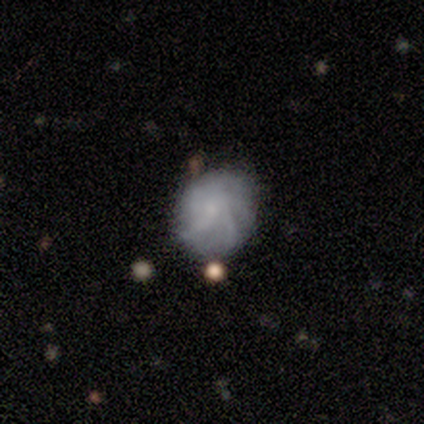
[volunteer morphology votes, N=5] Smooth or featured: featured or disk — 60% (smooth — 40%)
Edge-on disk: no — 100%
Bar: no — 67% (weak — 33%)
Spiral arms: yes — 67% (no — 33%)
Spiral winding: medium — 50% (tied with loose — 50%)
Spiral arm count: more than 4 — 100%
Bulge size: moderate — 33% (tied with small — 33%; none — 33%)
Merging: none — 60% (minor disturbance — 40%)